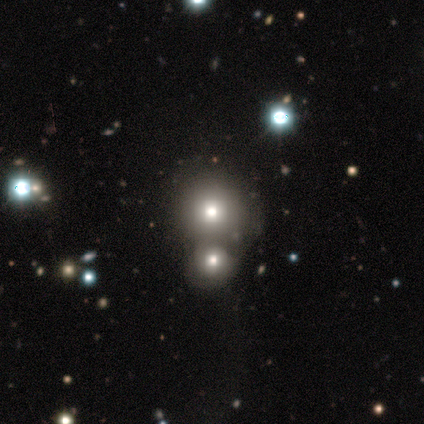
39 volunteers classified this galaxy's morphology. Volunteers were most divided on "merging": merger: 58%, none: 39%, minor disturbance: 3%, major disturbance: 0%. More confident: how rounded — round (85%); smooth or featured — smooth (67%).